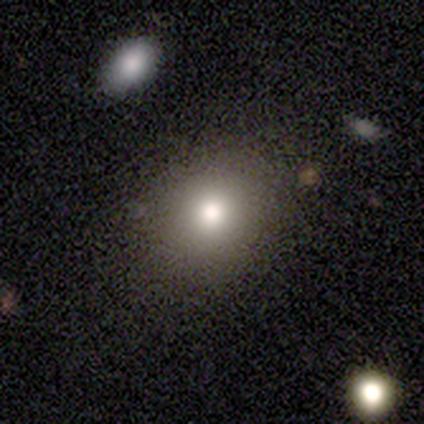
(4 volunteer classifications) smooth 50%, featured or disk 25%, star or artifact 25%. Down the decision tree: how rounded — round (50%, tied with in between); merging — none (100%).